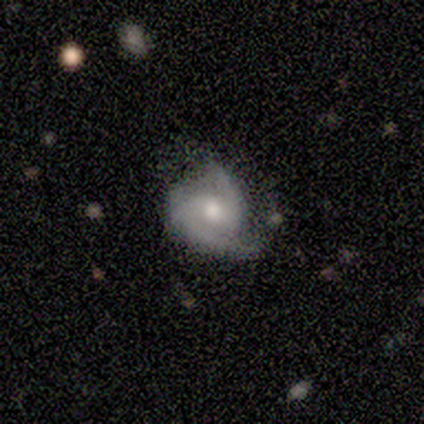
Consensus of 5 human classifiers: Smooth or featured?
  - featured or disk: 100% *
  - smooth: 0%
  - star or artifact: 0%
Edge-on disk?
  - no: 100% *
  - yes: 0%
Bar?
  - weak: 40% * (tied)
  - no: 40% * (tied)
  - strong: 20%
Spiral arms?
  - yes: 100% *
  - no: 0%
Spiral winding?
  - medium: 60% *
  - tight: 40%
  - loose: 0%
Spiral arm count?
  - 2: 100% *
  - 1: 0%
  - 3: 0%
  - 4: 0%
  - more than 4: 0%
  - can't tell: 0%
Bulge size?
  - moderate: 80% *
  - small: 20%
  - dominant: 0%
  - large: 0%
  - none: 0%
Merging?
  - none: 60% *
  - minor disturbance: 40%
  - major disturbance: 0%
  - merger: 0%